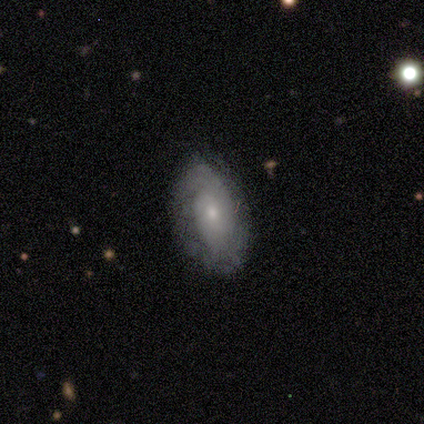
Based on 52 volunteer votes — Volunteers were most divided on "bulge size": small: 62%, moderate: 35%, large: 2%, dominant: 0%, none: 0%. More confident: edge-on disk — no (100%); bar — no (82%); spiral arms — yes (78%); smooth or featured — featured or disk (77%); merging — none (71%); spiral winding — tight (65%); spiral arm count — can't tell (55%).